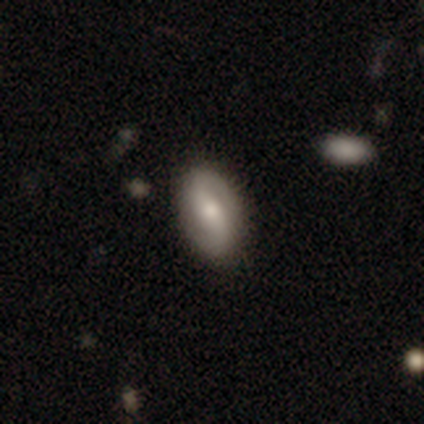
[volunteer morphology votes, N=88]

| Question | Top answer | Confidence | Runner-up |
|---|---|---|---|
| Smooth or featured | featured or disk | 64% | smooth (32%) |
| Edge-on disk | no | 96% | yes (4%) |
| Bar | weak | 39% | no (35%) |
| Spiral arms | yes | 87% | no (13%) |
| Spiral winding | loose | 40% | medium (32%) |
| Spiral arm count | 2 | 89% | 1 (4%) |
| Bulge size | moderate | 44% | small (41%) |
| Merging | none | 86% | minor disturbance (13%) |